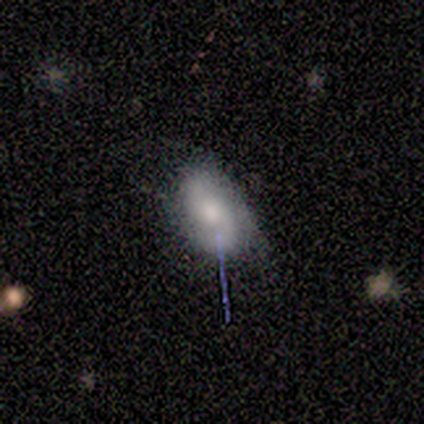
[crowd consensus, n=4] Morphology: type=featured or disk (50%); edge-on=no (100%); bar=weak (50%, tied with no); spiral arms=yes (50%, tied with no); winding=loose (100%); arm count=2 (100%); bulge=large (50%, tied with moderate); merging=none (67%).